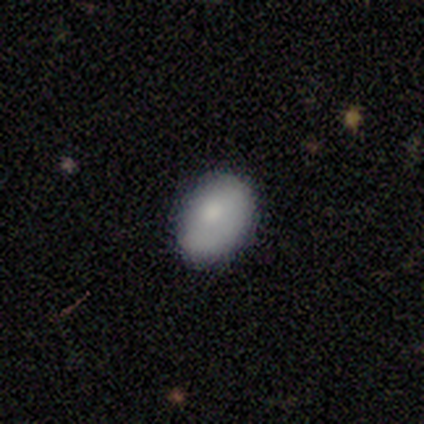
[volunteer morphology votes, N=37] Smooth or featured?
  - smooth: 81% *
  - featured or disk: 11%
  - star or artifact: 8%
How rounded?
  - in between: 87% *
  - round: 13%
  - cigar-shaped: 0%
Merging?
  - none: 76% *
  - minor disturbance: 21%
  - major disturbance: 3%
  - merger: 0%